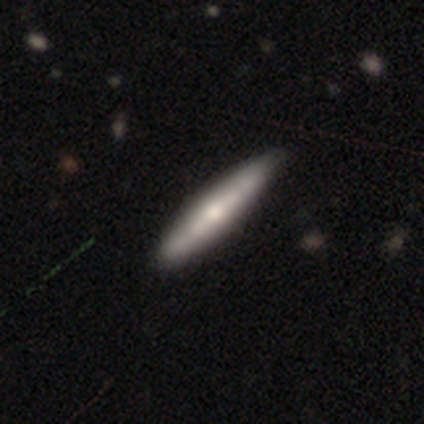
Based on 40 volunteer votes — Smooth or featured? featured or disk (48%)
Edge-on disk? yes (84%)
Edge-on bulge? rounded (81%)
Merging? none (65%)